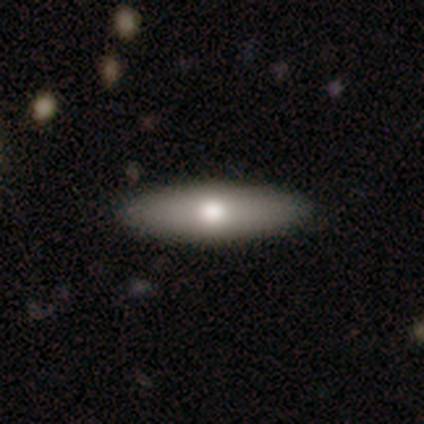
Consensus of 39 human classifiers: Smooth or featured: smooth — 51% (featured or disk — 44%)
How rounded: cigar-shaped — 65% (in between — 35%)
Merging: none — 57% (minor disturbance — 5%)